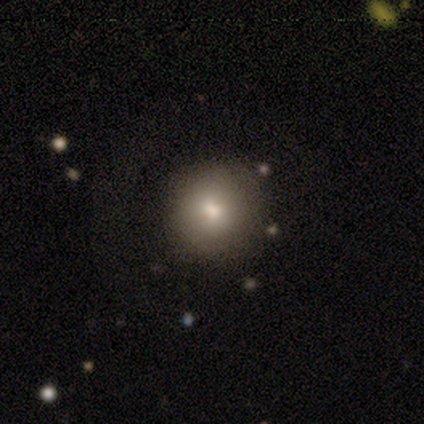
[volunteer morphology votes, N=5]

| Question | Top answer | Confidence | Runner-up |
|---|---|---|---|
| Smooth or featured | smooth | 80% | featured or disk (20%) |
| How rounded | round | 100% | — |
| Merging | none | 100% | — |